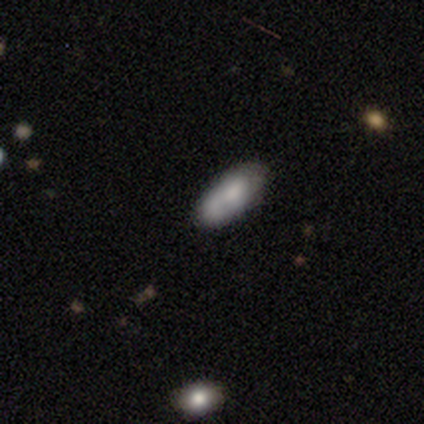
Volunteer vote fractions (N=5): This is likely a smooth galaxy (60%). How rounded: clearly in between (100%). Merging: likely none (60%).